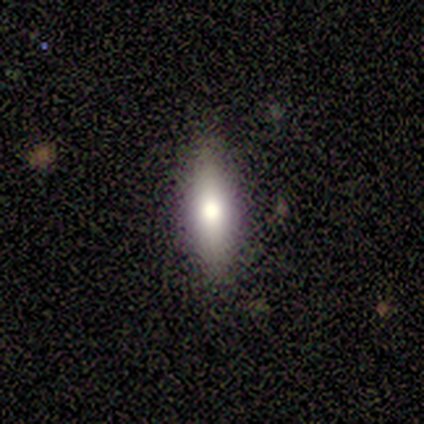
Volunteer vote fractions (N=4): This is likely a smooth galaxy (75%). How rounded: likely cigar-shaped (67%). Merging: clearly none (100%).